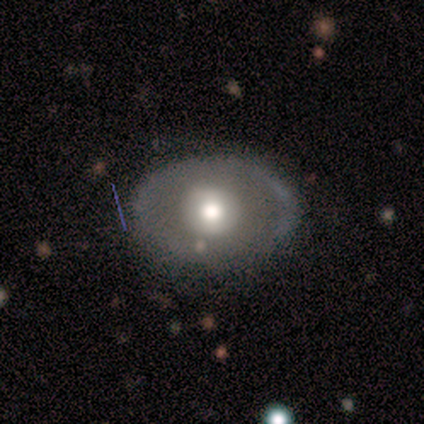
A featured or disk galaxy (60%) with no bar (67%), no spiral arms (67%) and a large central bulge (100%). Merging: none (75%).